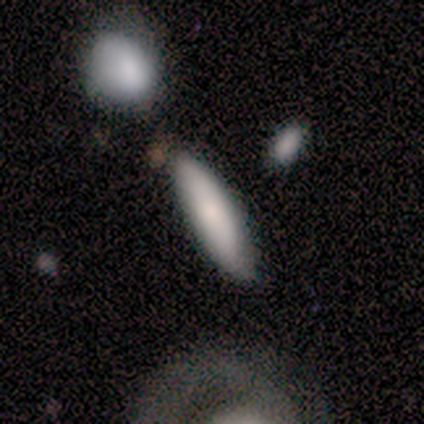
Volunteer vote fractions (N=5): Volunteers were most divided on "how rounded": cigar-shaped: 60%, round: 20%, in between: 20%. More confident: smooth or featured — smooth (100%); merging — none (80%).